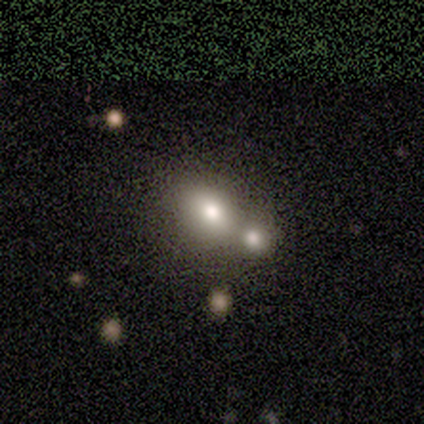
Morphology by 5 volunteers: smooth-or-featured: smooth: 80% | star or artifact: 20% | featured or disk: 0%
  how-rounded: round: 50% (tied) | in between: 50% (tied) | cigar-shaped: 0%
  merging: none: 50% (tied) | merger: 50% (tied) | minor disturbance: 0% | major disturbance: 0%